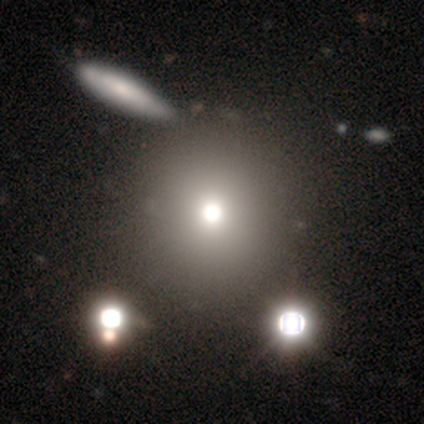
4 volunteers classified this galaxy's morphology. This appears to be a smooth galaxy with no disk features (50%) that is round (100%). Merging: none (67%).